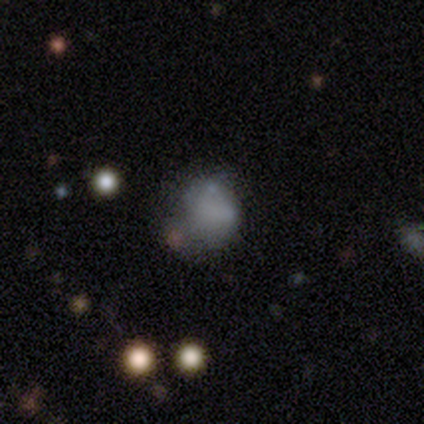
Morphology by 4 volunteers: Smooth or featured? 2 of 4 (50%, tied with featured or disk) said smooth. How rounded? 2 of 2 (100%) said round. Merging? 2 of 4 (50%) said minor disturbance.